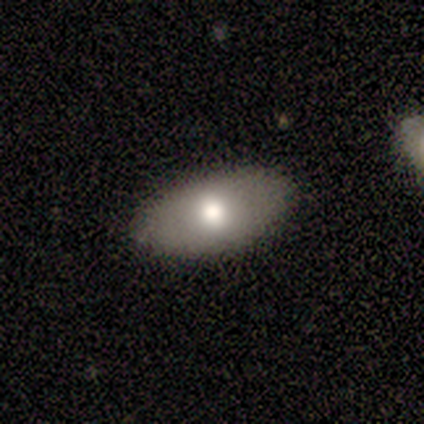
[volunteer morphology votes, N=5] This appears to be a smooth galaxy with no disk features (100%) that is in between round and cigar-shaped (100%). Merging: none (100%).